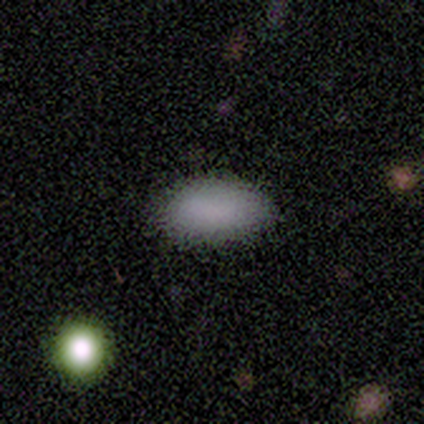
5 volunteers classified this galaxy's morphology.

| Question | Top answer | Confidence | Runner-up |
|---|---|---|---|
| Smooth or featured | smooth | 100% | — |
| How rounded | in between | 100% | — |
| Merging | none | 80% | minor disturbance (20%) |